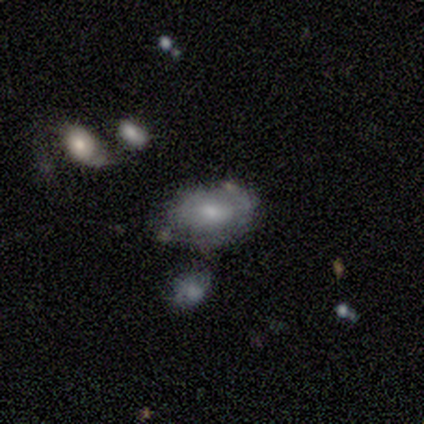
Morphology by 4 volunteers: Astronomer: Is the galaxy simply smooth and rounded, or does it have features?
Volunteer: featured or disk — 75%.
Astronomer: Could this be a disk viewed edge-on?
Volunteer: no — 100%.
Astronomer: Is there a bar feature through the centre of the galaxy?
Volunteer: weak — 67%.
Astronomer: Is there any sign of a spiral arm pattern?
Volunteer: no — 100%.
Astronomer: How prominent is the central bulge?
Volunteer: moderate — 33%, tied with small and none at 33%.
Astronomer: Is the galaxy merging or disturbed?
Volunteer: none — 50%.